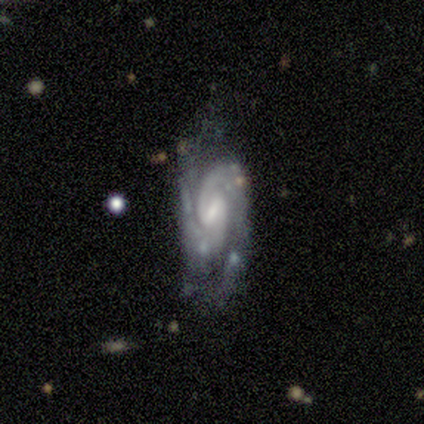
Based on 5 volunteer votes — smooth_or_featured: featured or disk (p=0.80) [alt: star or artifact p=0.20]
disk_edge_on: no (p=1.00)
bar: weak (p=0.75) [alt: no p=0.25]
has_spiral_arms: yes (p=1.00)
spiral_winding: tight (p=0.50) [tied with: medium p=0.50]
spiral_arm_count: 2 (p=1.00)
bulge_size: moderate (p=0.75) [alt: small p=0.25]
merging: none (p=0.50) [tied with: minor disturbance p=0.50]